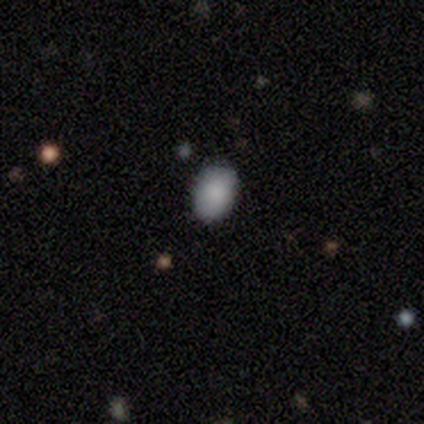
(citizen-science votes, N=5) Morphology: type=smooth (100%); roundness=in between (60%); merging=none (80%).